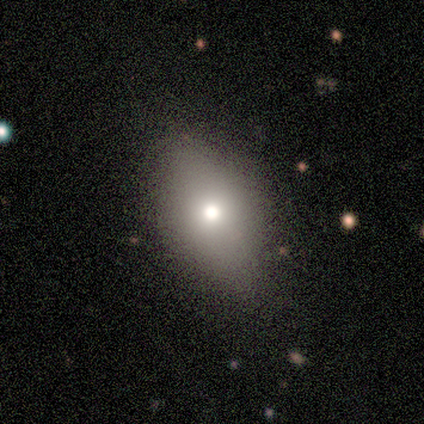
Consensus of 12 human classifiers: Smooth or featured? smooth (50%)
How rounded? in between (67%)
Merging? none (82%)